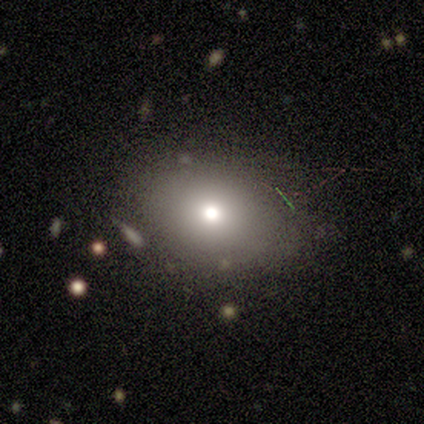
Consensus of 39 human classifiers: This appears to be a smooth galaxy with no disk features (69%) that is round (63%). Merging: none (83%).